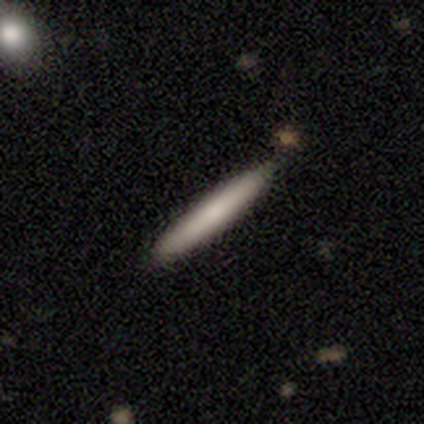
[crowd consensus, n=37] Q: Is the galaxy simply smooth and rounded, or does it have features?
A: smooth — 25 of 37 (68%).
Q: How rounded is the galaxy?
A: cigar-shaped — 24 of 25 (96%).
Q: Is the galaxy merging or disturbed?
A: none — 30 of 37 (81%).